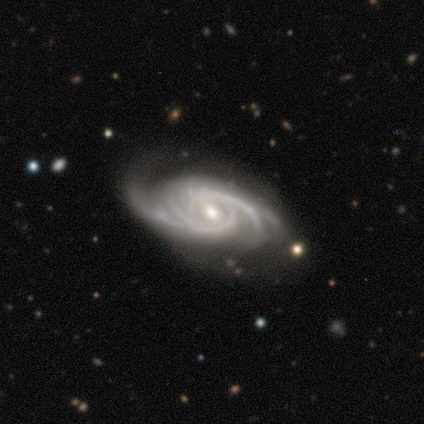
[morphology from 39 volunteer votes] type=featured or disk (100%); edge-on=no (100%); bar=weak (67%); spiral arms=yes (100%); winding=tight (51%); arm count=2 (33%); bulge=moderate (54%); merging=none (67%).